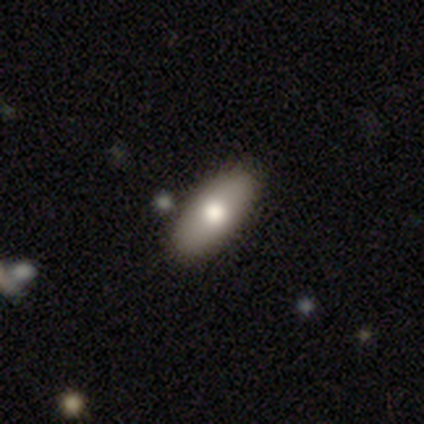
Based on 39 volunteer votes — This is likely a smooth galaxy (72%). How rounded: clearly in between (93%). Merging: clearly none (92%).